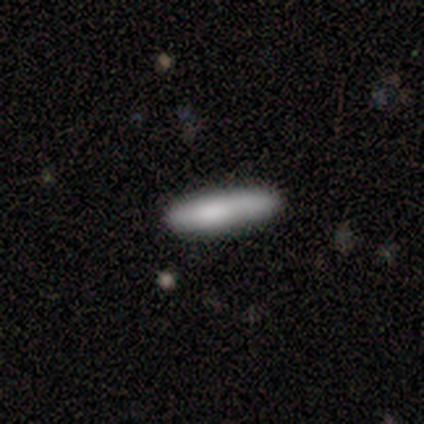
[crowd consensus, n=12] Overall: smooth (100%). How rounded: cigar-shaped (92%). Merging: none (67%; minor disturbance 33%).